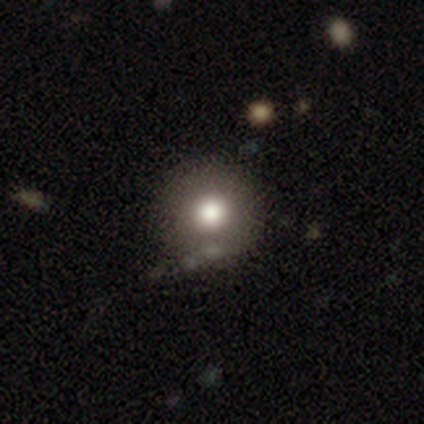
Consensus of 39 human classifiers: Morphology: type=smooth (82%); roundness=round (100%); merging=none (63%).